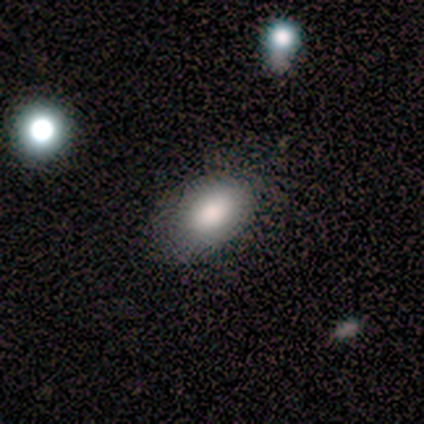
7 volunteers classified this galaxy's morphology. smooth-or-featured: smooth: 86% | featured or disk: 14% | star or artifact: 0%
  how-rounded: in between: 83% | round: 17% | cigar-shaped: 0%
  merging: none: 71% | minor disturbance: 14% | major disturbance: 14% | merger: 0%